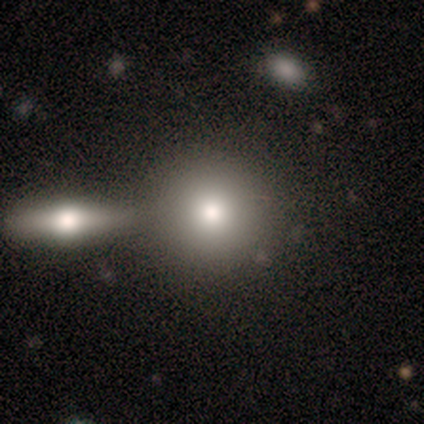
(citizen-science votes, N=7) Smooth or featured? smooth (86%)
How rounded? round (67%)
Merging? none (50%)